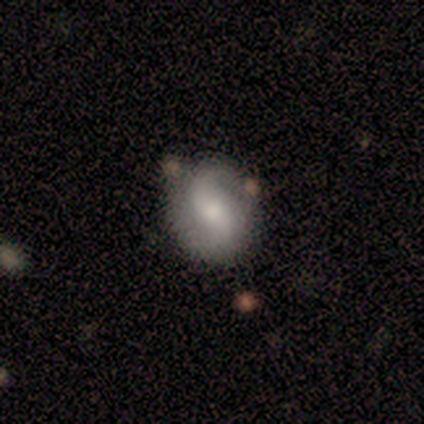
This is likely a featured or disk galaxy (60%). It is clearly not viewed edge-on (100%). Bar: likely weak (67%). Spiral arm pattern: clearly yes (100%). Spiral arm count: likely 2 (67%). Spiral winding: clearly loose (100%). Central bulge: clearly moderate (100%). Merging: likely none (60%).